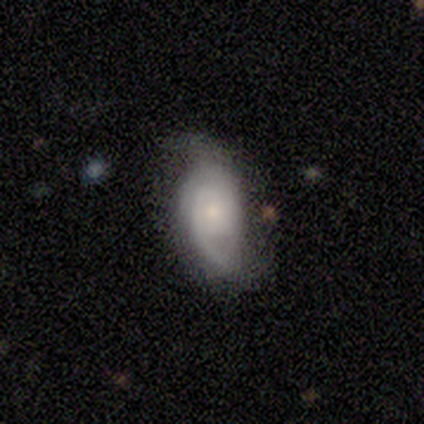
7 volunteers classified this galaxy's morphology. Smooth or featured? 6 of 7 (86%) said featured or disk. Edge-on disk? 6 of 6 (100%) said no. Bar? 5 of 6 (83%) said no. Spiral arms? 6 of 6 (100%) said yes. Spiral winding? 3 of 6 (50%) said tight. Spiral arm count? 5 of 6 (83%) said 2. Bulge size? 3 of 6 (50%, tied with small) said moderate. Merging? 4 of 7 (57%) said none.